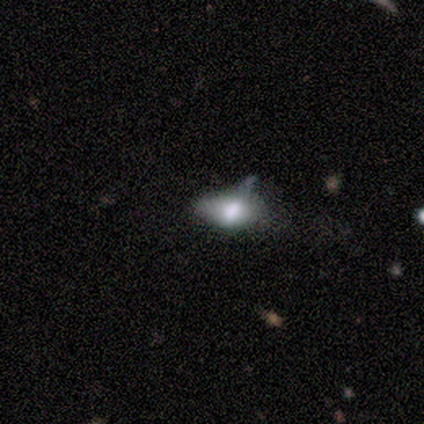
smooth-or-featured: smooth: 80% | star or artifact: 20% | featured or disk: 0%
  how-rounded: in between: 75% | round: 25% | cigar-shaped: 0%
  merging: none: 50% (tied) | major disturbance: 50% (tied) | minor disturbance: 0% | merger: 0%